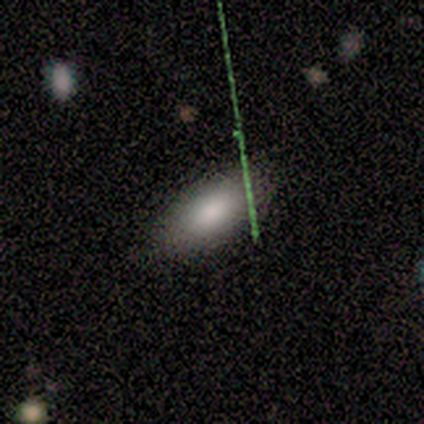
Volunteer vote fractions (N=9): This appears to be a smooth galaxy with no disk features (78%) that is in between round and cigar-shaped (100%). Merging: none (88%).